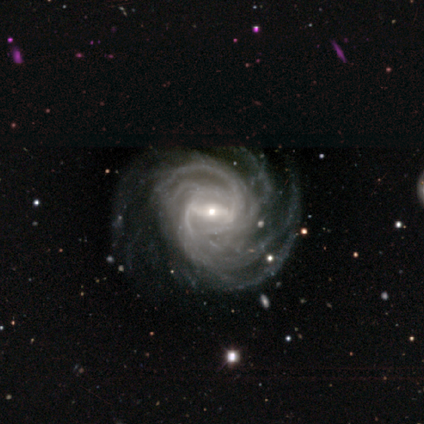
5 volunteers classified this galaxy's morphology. Q: Smooth or featured?
A: featured or disk (100%)
Q: Edge-on disk?
A: no (100%)
Q: Bar?
A: strong (40%); tied with: weak (40%)
Q: Spiral arms?
A: yes (100%)
Q: Spiral winding?
A: tight (60%); runner-up: medium (40%)
Q: Spiral arm count?
A: more than 4 (80%); runner-up: can't tell (20%)
Q: Bulge size?
A: moderate (40%); tied with: small (40%)
Q: Merging?
A: none (60%); runner-up: minor disturbance (20%)